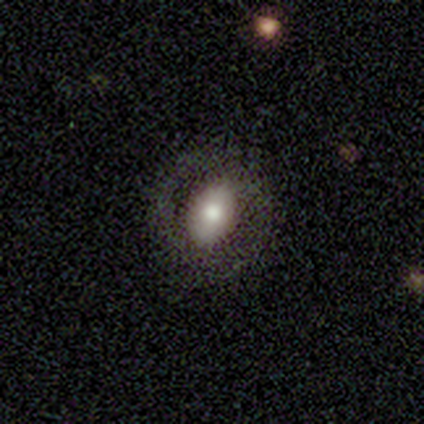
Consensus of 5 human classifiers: smooth 80%, featured or disk 20%, star or artifact 0%. Down the decision tree: how rounded — in between (75%); merging — none (80%).